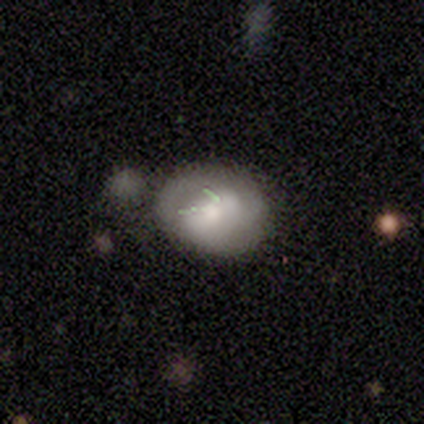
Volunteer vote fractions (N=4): This is likely a featured or disk galaxy (75%). It is clearly not viewed edge-on (100%). Bar: clearly strong (100%). Spiral arm pattern: likely no (67%). Central bulge: likely moderate (67%). Merging: possibly minor disturbance (50%).